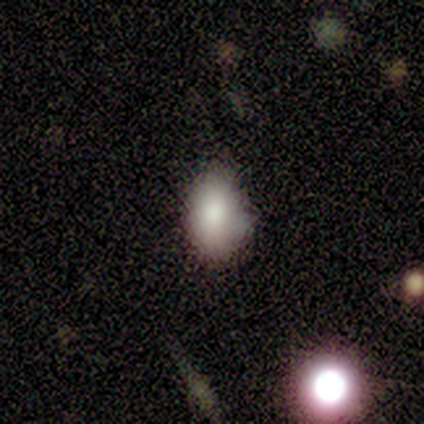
This appears to be a smooth galaxy with no disk features (100%) that is in between round and cigar-shaped (100%). Merging: minor disturbance (67%).